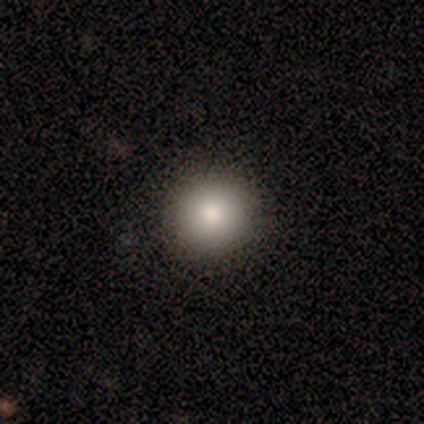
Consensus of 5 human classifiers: A smooth galaxy with no disk features (100%) that is round (80%). Merging: none (60%).